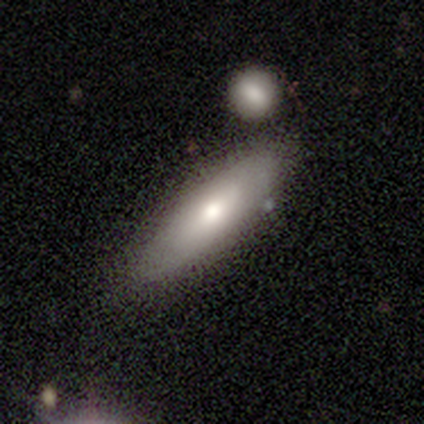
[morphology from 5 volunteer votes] featured or disk 80%, smooth 20%, star or artifact 0%. Down the decision tree: edge-on disk — yes (75%); edge-on bulge — rounded (100%); merging — none (80%).